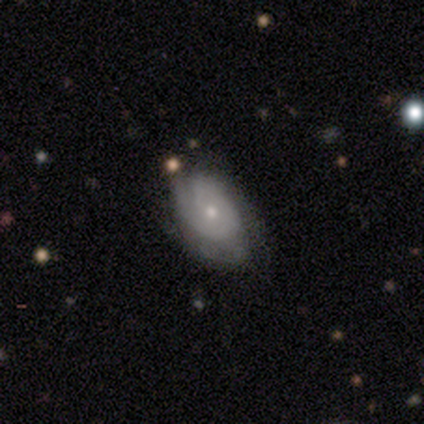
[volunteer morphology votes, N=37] Volunteers were most divided on "spiral arm count" (2-way tie): 1: 36%, 2: 36%, can't tell: 18%, 3: 9%, 4: 0%, more than 4: 0%. Remaining: edge-on disk — no (96%); spiral arms — yes (92%); bulge size — small (79%); bar — no (75%); smooth or featured — featured or disk (68%); spiral winding — tight (50%); merging — none (47%).